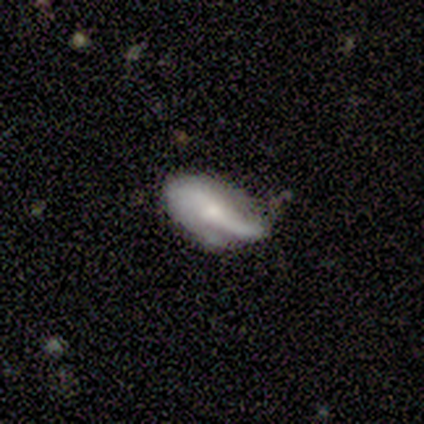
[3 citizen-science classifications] A featured or disk galaxy (67%) with a weak bar (50%, tied with no), 2 (50%, tied with can't tell) tight (50%, tied with loose) spiral arms (100%) and a small central bulge (50%, tied with none). Merging: none (100%).